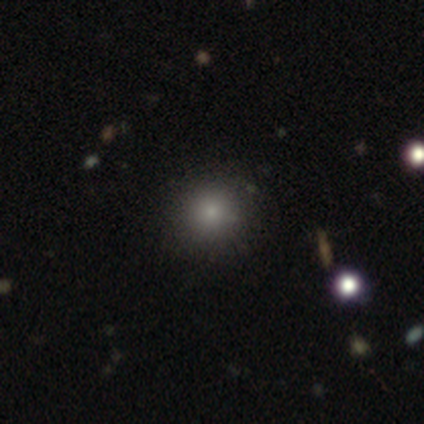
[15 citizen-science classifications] A smooth galaxy with no disk features (80%) that is round (100%).

Vote fractions:
- Smooth or featured? smooth: 80% / star or artifact: 13% / featured or disk: 7%
- How rounded? round: 100% / in between: 0% / cigar-shaped: 0%
- Merging? none: 92% / major disturbance: 8% / minor disturbance: 0% / merger: 0%